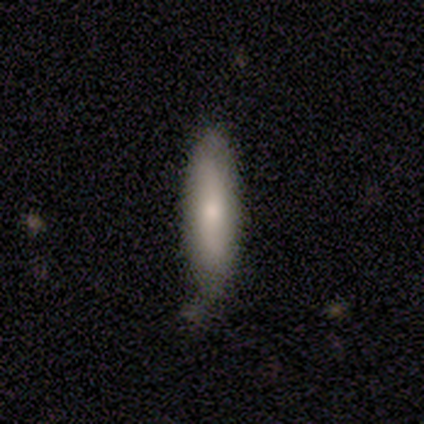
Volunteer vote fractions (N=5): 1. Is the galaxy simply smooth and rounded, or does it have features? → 80% smooth, 20% featured or disk, 0% star or artifact.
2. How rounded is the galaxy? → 50% cigar-shaped, 25% round, 25% in between.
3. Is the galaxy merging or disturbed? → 80% none, 20% minor disturbance, 0% major disturbance, 0% merger.